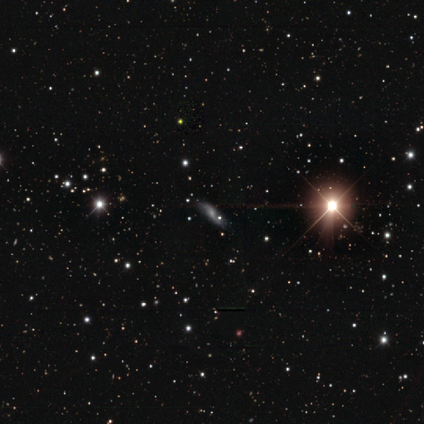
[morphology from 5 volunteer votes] This is clearly a featured or disk galaxy (80%). It is clearly not viewed edge-on (100%). Bar: possibly weak (50%, tied with no). Spiral arm pattern: likely yes (75%). Spiral arm count: clearly 2 (100%). Spiral winding: clearly loose (100%). Central bulge: possibly none (50%). Merging: likely none (75%).